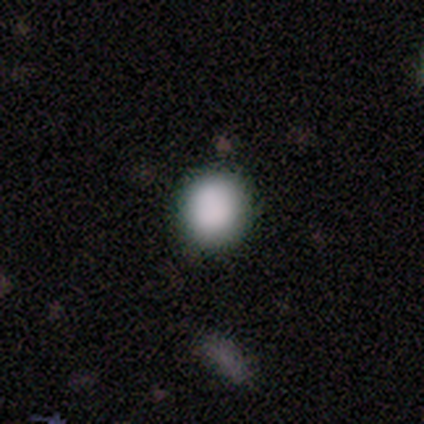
This appears to be a smooth galaxy with no disk features (95%) that is round (83%). Merging: none (91%).